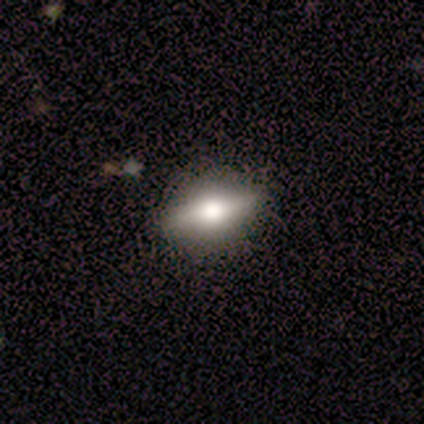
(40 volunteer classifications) smooth-or-featured: featured or disk: 62% | smooth: 30% | star or artifact: 8%
  disk-edge-on: yes: 96% | no: 4%
    edge-on-bulge: rounded: 96% | boxy: 4% | none: 0%
  merging: none: 97% | minor disturbance: 3% | major disturbance: 0% | merger: 0%